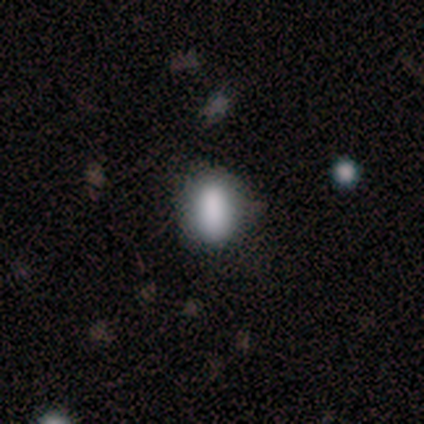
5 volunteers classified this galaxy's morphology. This is clearly a smooth galaxy (100%). How rounded: clearly in between (100%). Merging: likely none (60%).